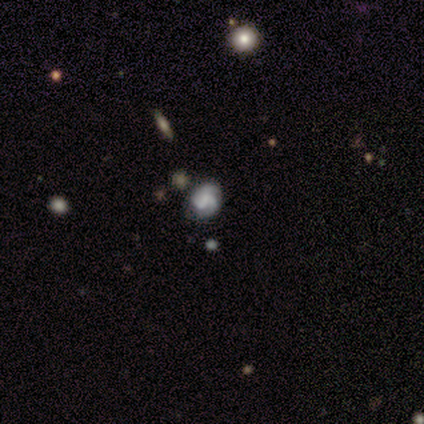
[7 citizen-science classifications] Overall: featured or disk (57%; smooth 43%). Edge-on disk: no (100%). Bar: no (75%). Spiral arms: yes (75%). Spiral arm count: 2 (67%; can't tell 33%). Spiral winding: medium (67%; tight 33%). Bulge size: large (25%, tied with moderate, small and none). Merging: none (71%).